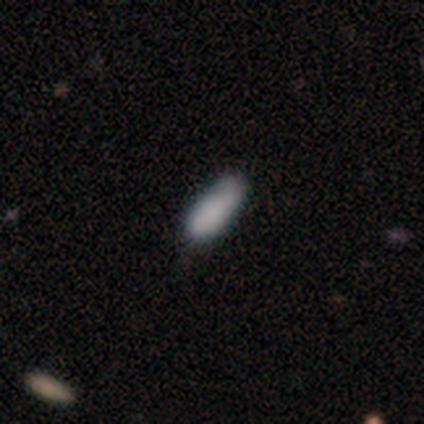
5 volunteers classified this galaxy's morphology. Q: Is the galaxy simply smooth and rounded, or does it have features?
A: smooth — 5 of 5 (100%).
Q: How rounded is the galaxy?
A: in between — 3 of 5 (60%).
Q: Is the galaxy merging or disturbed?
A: none — 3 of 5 (60%).